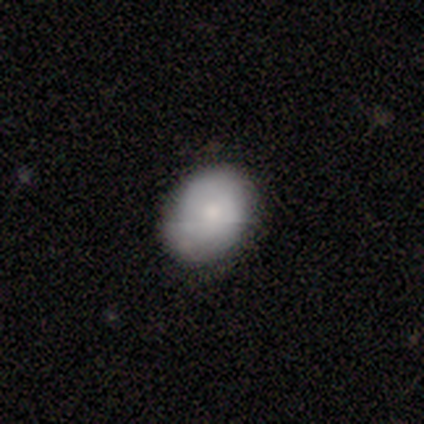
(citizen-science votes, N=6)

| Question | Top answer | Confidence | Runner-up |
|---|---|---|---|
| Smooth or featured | smooth | 50% | tied: featured or disk (50%) |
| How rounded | in between | 100% | — |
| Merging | none | 83% | minor disturbance (17%) |